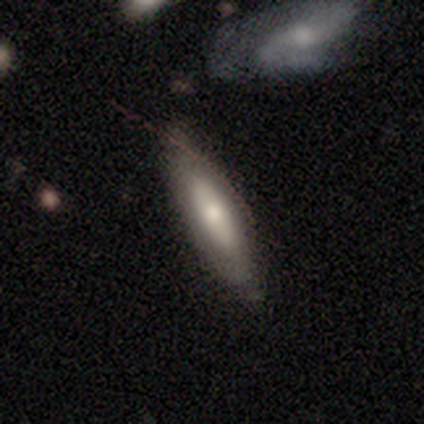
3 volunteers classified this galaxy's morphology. Smooth or featured? 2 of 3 (67%) said featured or disk. Edge-on disk? 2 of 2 (100%) said no. Bar? 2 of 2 (100%) said no. Spiral arms? 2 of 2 (100%) said no. Bulge size? 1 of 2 (50%, tied with moderate) said large. Merging? 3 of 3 (100%) said none.